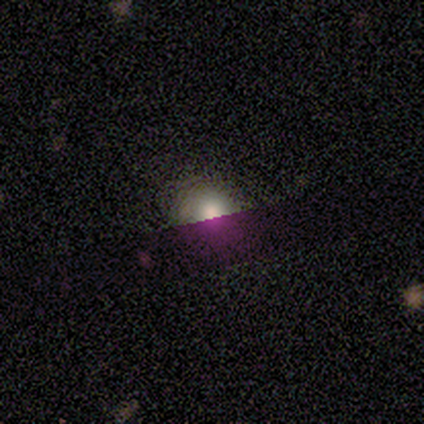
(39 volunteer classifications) A smooth galaxy with no disk features (62%) that is round (67%). Merging: none (54%).